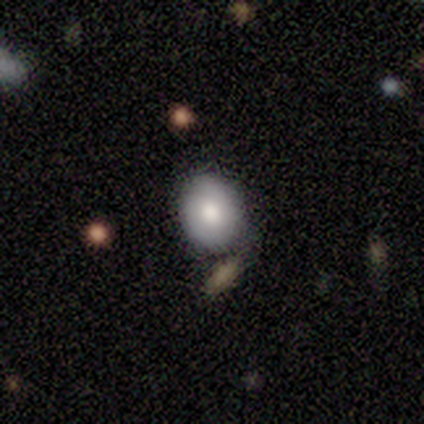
A smooth galaxy with no disk features (76%) that is round (55%). Merging: none (69%).